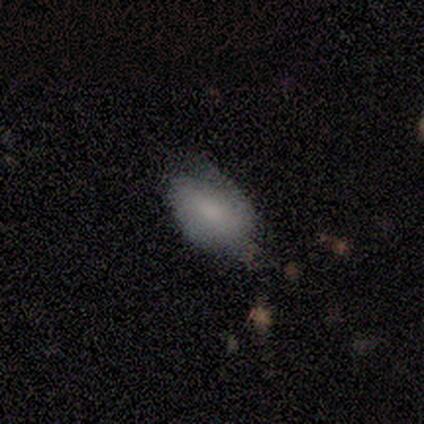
Overall: smooth (80%). How rounded: in between (100%). Merging: minor disturbance (60%; none 40%).